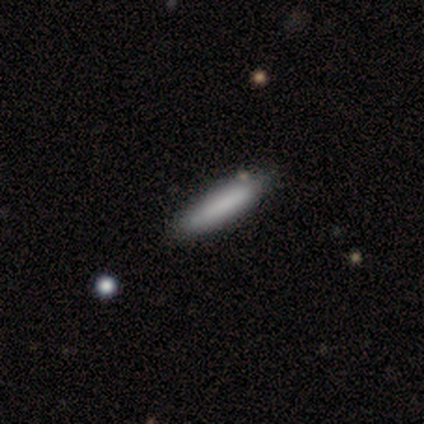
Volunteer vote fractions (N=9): smooth_or_featured: smooth (p=1.00)
how_rounded: cigar-shaped (p=0.89) [alt: in between p=0.11]
merging: none (p=0.89) [alt: minor disturbance p=0.11]